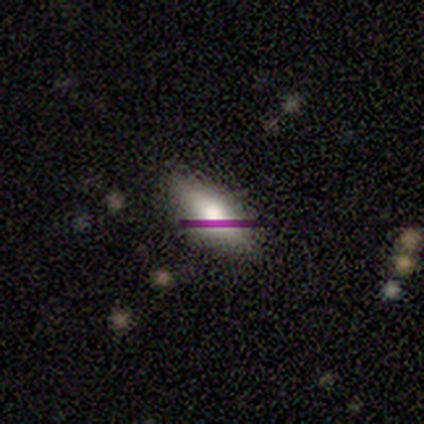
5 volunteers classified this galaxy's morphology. Smooth or featured? 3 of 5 (60%) said smooth. How rounded? 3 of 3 (100%) said in between. Merging? 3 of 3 (100%) said none.